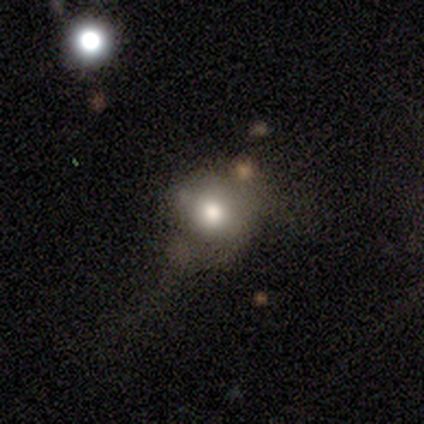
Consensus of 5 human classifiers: Overall: smooth (60%; featured or disk 20%). How rounded: round (67%; in between 33%). Merging: none (50%; minor disturbance 25%).